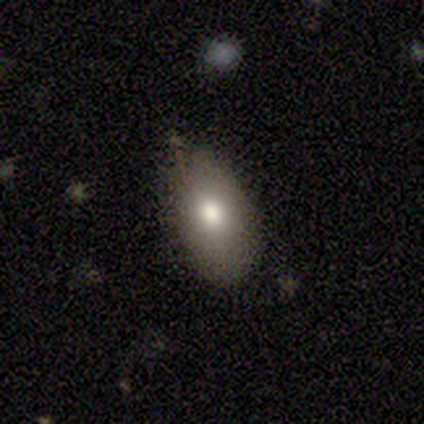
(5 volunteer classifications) Overall: smooth (80%). How rounded: in between (100%). Merging: none (80%).